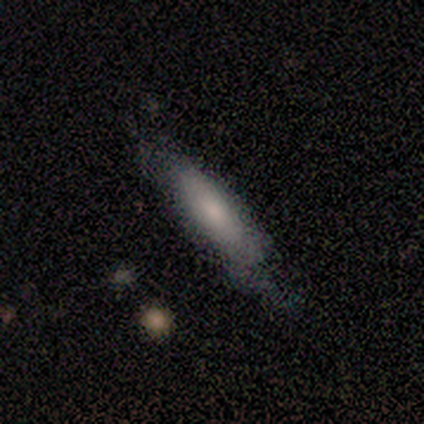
This is clearly a smooth galaxy (80%). How rounded: likely in between (75%). Merging: clearly none (80%).